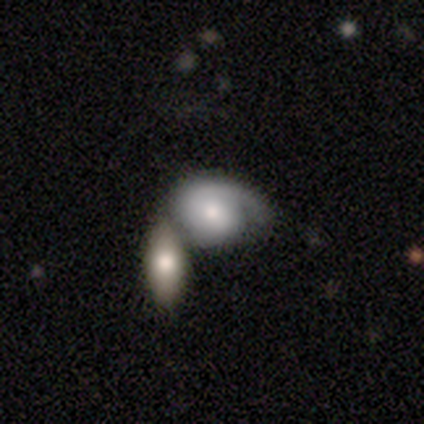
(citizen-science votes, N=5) Q: Smooth or featured?
A: featured or disk (60%); runner-up: smooth (40%)
Q: Edge-on disk?
A: no (100%)
Q: Bar?
A: no (67%); runner-up: weak (33%)
Q: Spiral arms?
A: yes (67%); runner-up: no (33%)
Q: Spiral winding?
A: tight (50%); tied with: loose (50%)
Q: Spiral arm count?
A: 1 (100%)
Q: Bulge size?
A: dominant (33%); tied with: large (33%); small (33%)
Q: Merging?
A: merger (60%); runner-up: none (20%)